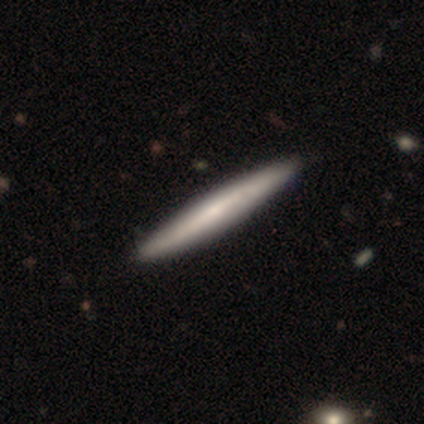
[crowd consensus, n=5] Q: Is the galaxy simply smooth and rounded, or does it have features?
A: smooth — 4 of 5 (80%).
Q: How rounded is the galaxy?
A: cigar-shaped — 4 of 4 (100%).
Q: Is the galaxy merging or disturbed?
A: none — 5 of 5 (100%).